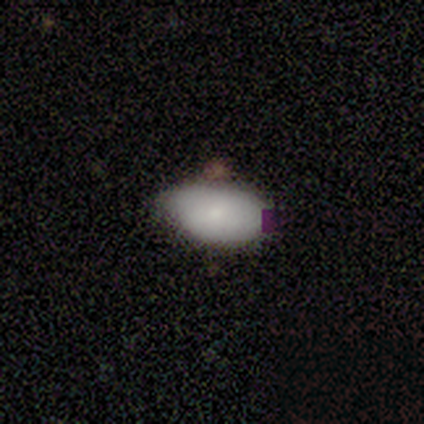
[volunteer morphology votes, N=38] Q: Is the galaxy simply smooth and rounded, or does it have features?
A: smooth — 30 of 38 (79%).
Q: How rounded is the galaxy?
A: in between — 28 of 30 (93%).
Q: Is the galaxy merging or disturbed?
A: none — 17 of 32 (53%).